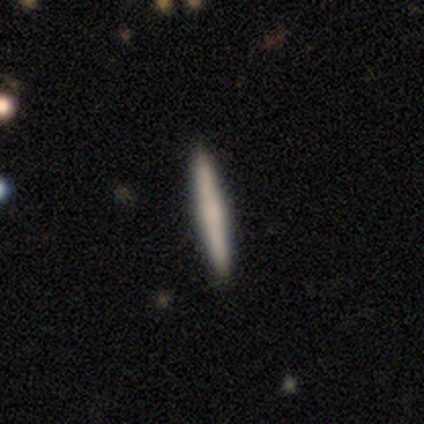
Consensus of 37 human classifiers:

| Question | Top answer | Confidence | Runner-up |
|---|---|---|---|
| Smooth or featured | smooth | 59% | featured or disk (30%) |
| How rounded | cigar-shaped | 95% | round (5%) |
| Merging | none | 97% | minor disturbance (3%) |